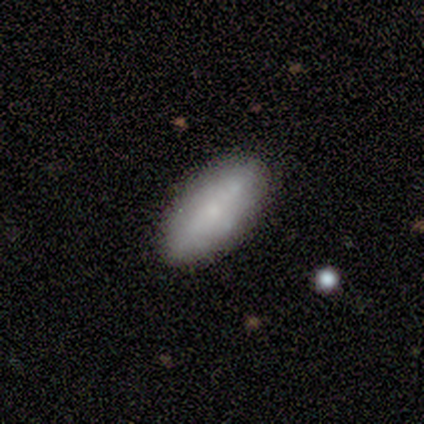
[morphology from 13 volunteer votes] Smooth or featured: smooth — 92% (featured or disk — 8%)
How rounded: in between — 100%
Merging: none — 100%